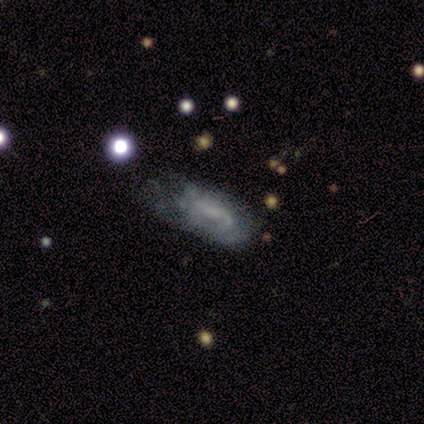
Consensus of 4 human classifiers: This is likely a featured or disk galaxy (75%). It is clearly not viewed edge-on (100%). Bar: clearly no (100%). Spiral arm pattern: likely yes (67%). Spiral arm count: clearly 1 (100%). Spiral winding: clearly loose (100%). Central bulge: likely none (67%). Merging: clearly minor disturbance (100%).